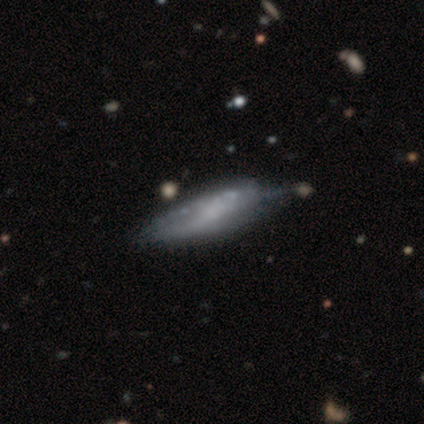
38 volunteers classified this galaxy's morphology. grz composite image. It shows a featured or disk galaxy (61%) with no bar (59%), no spiral arms (53%) and no central bulge (65%). Merging: minor disturbance (28%).